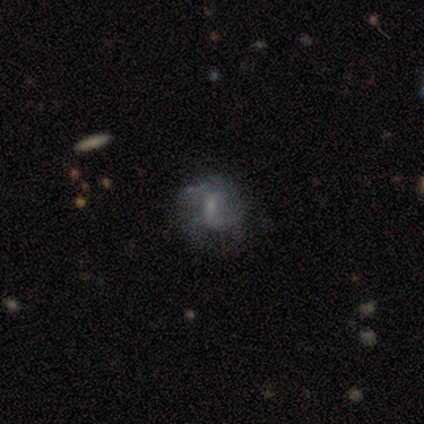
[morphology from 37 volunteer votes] A featured or disk galaxy (73%) with a weak bar (52%), 2 (61%) loose (50%) spiral arms (67%) and no central bulge (37%). Merging: none (65%).